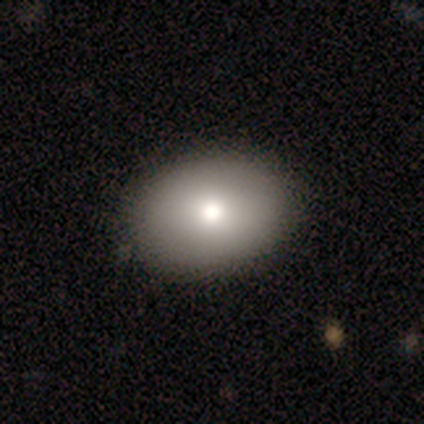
Smooth or featured?
  - smooth: 74% *
  - featured or disk: 18%
  - star or artifact: 8%
How rounded?
  - in between: 86% *
  - round: 14%
  - cigar-shaped: 0%
Merging?
  - none: 94% *
  - minor disturbance: 3%
  - merger: 3%
  - major disturbance: 0%